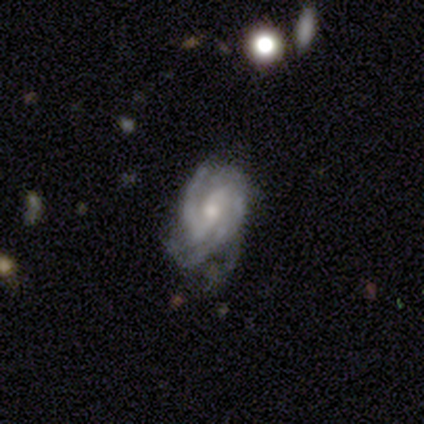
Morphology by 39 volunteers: This is clearly a featured or disk galaxy (95%). It is clearly not viewed edge-on (97%). Bar: possibly no (47%). Spiral arm pattern: clearly yes (100%). Spiral arm count: marginally 2 (36%, tied with 3). Spiral winding: possibly medium (56%). Central bulge: likely moderate (61%). Merging: likely none (68%).